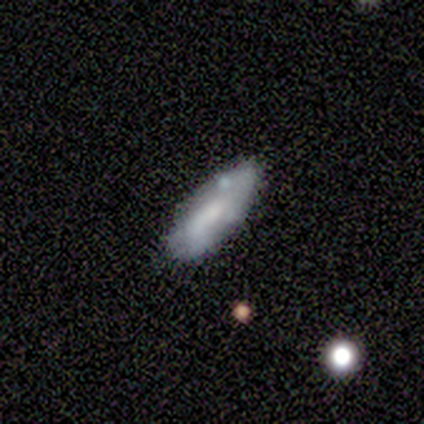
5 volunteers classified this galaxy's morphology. smooth 40% (tied), star or artifact 40% (tied), featured or disk 20%. Down the decision tree: how rounded — in between (100%); merging — none (67%).